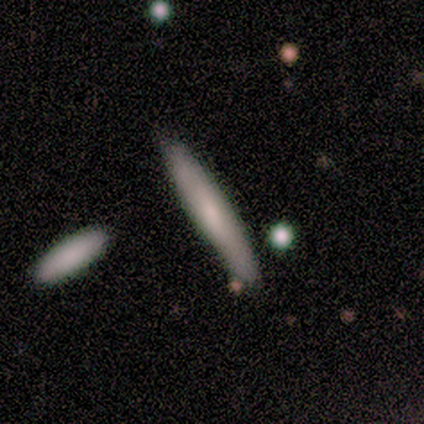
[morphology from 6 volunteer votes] smooth_or_featured: smooth (p=0.67) [alt: featured or disk p=0.33]
how_rounded: cigar-shaped (p=1.00)
merging: none (p=1.00)